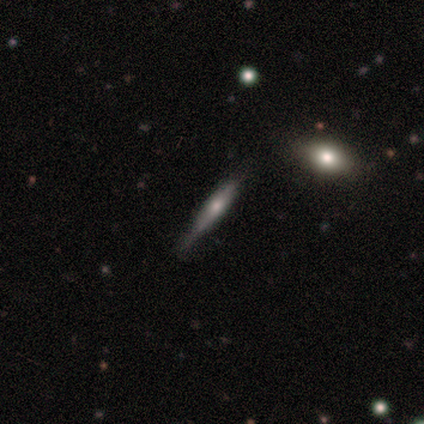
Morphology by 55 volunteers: A featured or disk galaxy (71%) viewed edge-on (90%) with a rounded central bulge (69%). Merging: none (57%).